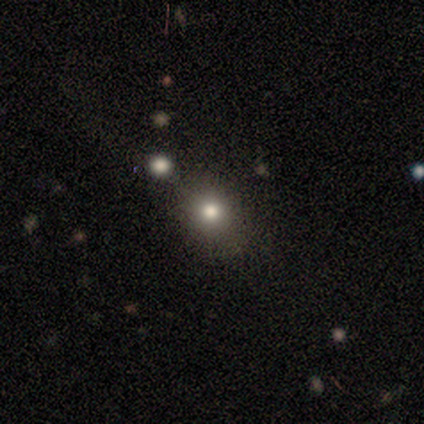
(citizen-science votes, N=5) Q: Smooth or featured?
A: smooth (100%)
Q: How rounded?
A: in between (60%); runner-up: round (40%)
Q: Merging?
A: none (80%); runner-up: minor disturbance (20%)